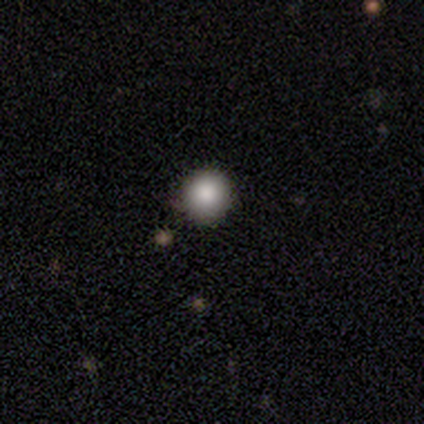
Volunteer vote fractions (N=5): smooth 100%, featured or disk 0%, star or artifact 0%. Down the decision tree: how rounded — round (100%); merging — none (100%).